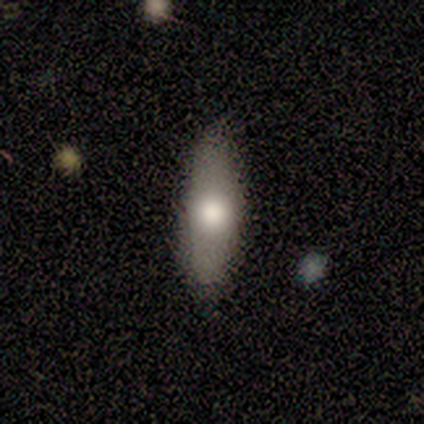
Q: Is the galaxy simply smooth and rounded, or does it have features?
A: smooth — 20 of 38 (53%).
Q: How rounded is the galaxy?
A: in between — 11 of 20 (55%).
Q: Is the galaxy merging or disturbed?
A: none — 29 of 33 (88%).